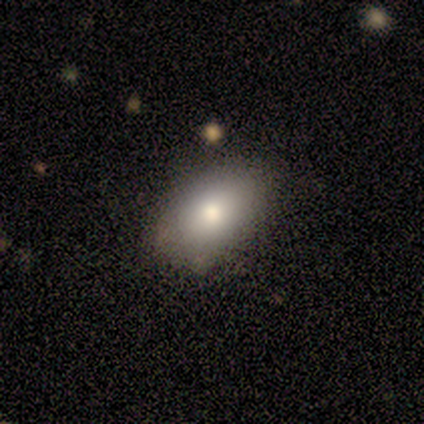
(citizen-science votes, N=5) Q: Smooth or featured?
A: smooth (60%); runner-up: featured or disk (20%)
Q: How rounded?
A: in between (100%)
Q: Merging?
A: none (100%)